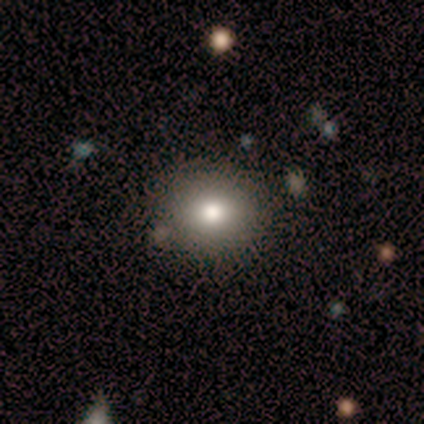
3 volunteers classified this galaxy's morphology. smooth_or_featured: smooth (p=1.00)
how_rounded: round (p=0.67) [alt: in between p=0.33]
merging: none (p=0.67) [alt: minor disturbance p=0.33]